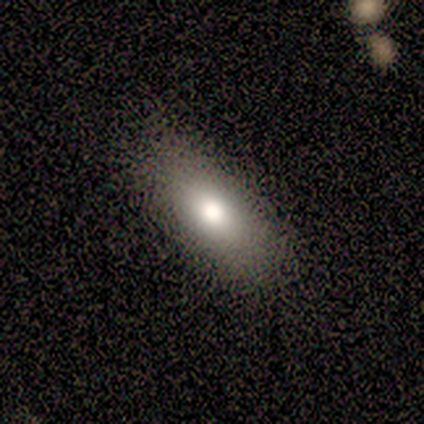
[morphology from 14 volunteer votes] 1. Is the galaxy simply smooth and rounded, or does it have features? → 71% smooth, 21% star or artifact, 7% featured or disk.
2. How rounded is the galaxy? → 70% in between, 20% cigar-shaped, 10% round.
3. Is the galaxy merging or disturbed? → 100% none, 0% minor disturbance, 0% major disturbance, 0% merger.